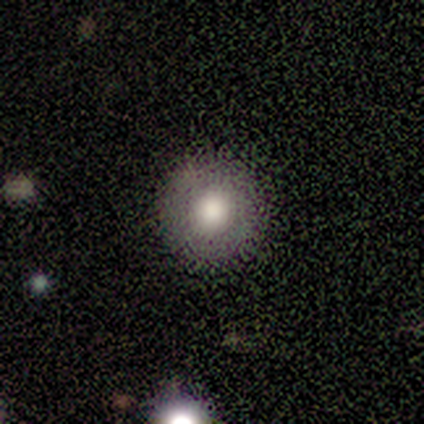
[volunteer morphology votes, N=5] type=smooth (80%); roundness=round (100%); merging=none (80%).